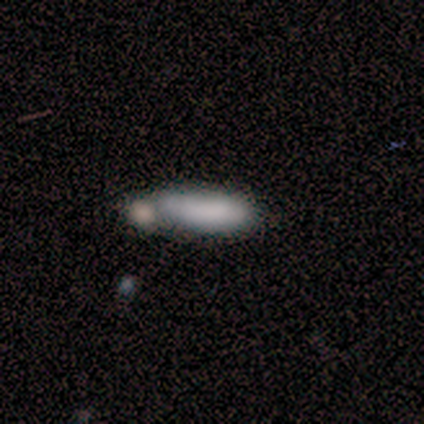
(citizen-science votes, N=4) A smooth galaxy with no disk features (100%) that is in between round and cigar-shaped (50%, tied with cigar-shaped). Merging: none (75%).